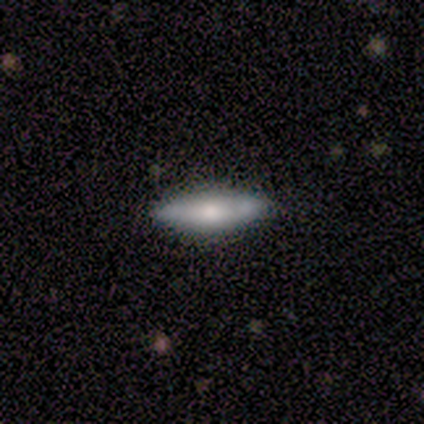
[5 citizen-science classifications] featured or disk 60%, smooth 40%, star or artifact 0%. Down the decision tree: edge-on disk — yes (67%); edge-on bulge — rounded (100%); merging — none (60%).